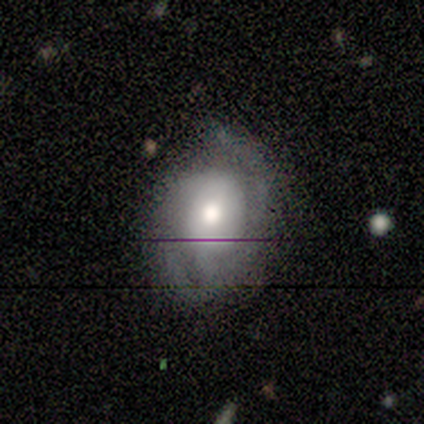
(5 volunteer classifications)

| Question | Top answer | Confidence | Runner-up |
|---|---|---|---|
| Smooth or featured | featured or disk | 60% | smooth (20%) |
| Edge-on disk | no | 100% | — |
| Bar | no | 100% | — |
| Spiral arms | yes | 100% | — |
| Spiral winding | tight | 33% | tied: medium (33%), loose (33%) |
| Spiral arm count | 2 | 67% | 3 (33%) |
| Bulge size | moderate | 67% | small (33%) |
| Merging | none | 75% | minor disturbance (25%) |